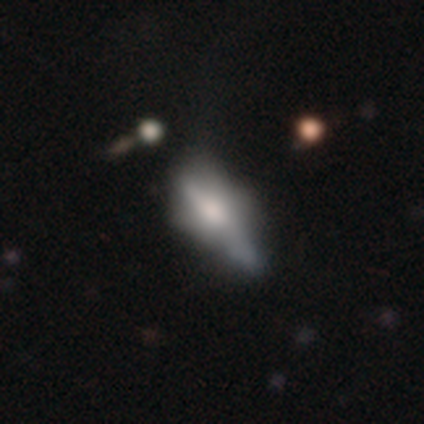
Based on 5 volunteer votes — Smooth or featured? smooth (40%, tied with featured or disk)
How rounded? in between (100%)
Merging? none (50%)